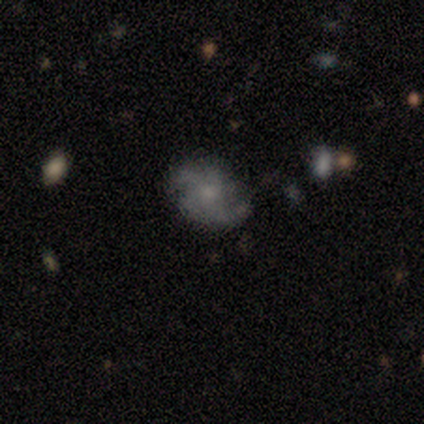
smooth-or-featured: featured or disk: 91% | smooth: 9% | star or artifact: 0%
  disk-edge-on: no: 100% | yes: 0%
    bar: no: 90% | weak: 10% | strong: 0%
    has-spiral-arms: yes: 90% | no: 10%
      spiral-winding: medium: 78% | loose: 22% | tight: 0%
      spiral-arm-count: 4: 33% | 2: 22% | 3: 22% | can't tell: 22% | 1: 0% | more than 4: 0%
    bulge-size: small: 70% | moderate: 30% | dominant: 0% | large: 0% | none: 0%
  merging: none: 64% | minor disturbance: 36% | major disturbance: 0% | merger: 0%